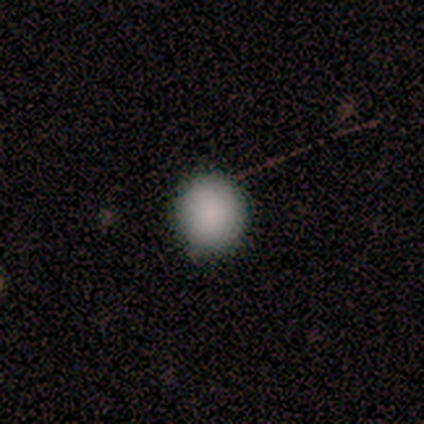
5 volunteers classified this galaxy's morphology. This is clearly a smooth galaxy (100%). How rounded: clearly round (100%). Merging: likely none (60%).